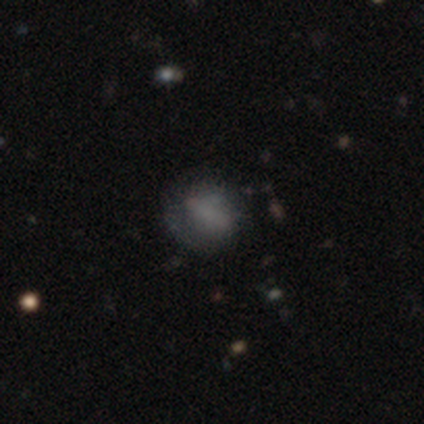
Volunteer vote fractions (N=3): Smooth or featured?
  - smooth: 67% *
  - featured or disk: 33%
  - star or artifact: 0%
How rounded?
  - round: 100% *
  - in between: 0%
  - cigar-shaped: 0%
Merging?
  - minor disturbance: 67% *
  - none: 33%
  - major disturbance: 0%
  - merger: 0%